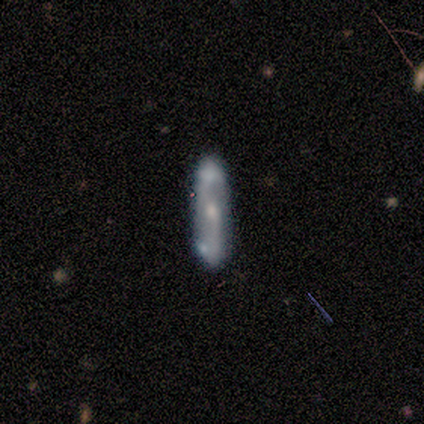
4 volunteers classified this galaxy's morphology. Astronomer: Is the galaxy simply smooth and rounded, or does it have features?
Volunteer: smooth — 50%, tied with featured or disk at 50%.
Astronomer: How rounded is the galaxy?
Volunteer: cigar-shaped — 100%.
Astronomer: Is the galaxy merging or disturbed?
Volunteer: none — 50%, tied with merger at 50%.